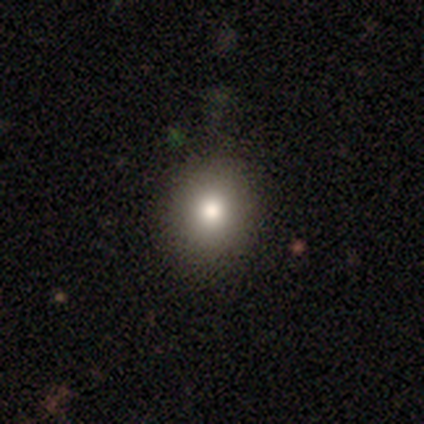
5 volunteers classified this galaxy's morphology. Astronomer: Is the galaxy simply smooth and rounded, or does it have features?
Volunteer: smooth — 80%.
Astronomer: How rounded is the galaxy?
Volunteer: round — 100%.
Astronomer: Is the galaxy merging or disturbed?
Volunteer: none — 100%.